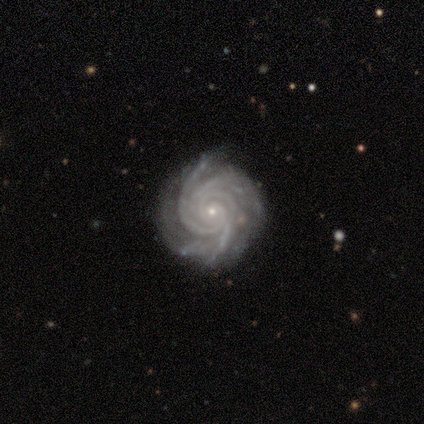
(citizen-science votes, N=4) This appears to be a featured or disk galaxy (100%) with no bar (100%), 4 (50%) tight (100%) spiral arms (100%) and a small central bulge (75%). Merging: none (75%).